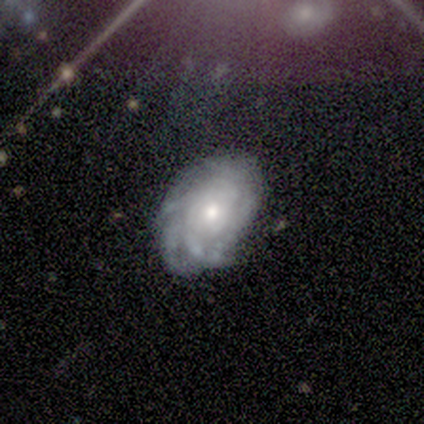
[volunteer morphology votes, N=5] A featured or disk galaxy (80%) with no bar (75%), 4 (50%, tied with can't tell) tight (75%) spiral arms (100%) and a moderate central bulge (50%). Merging: none (80%).